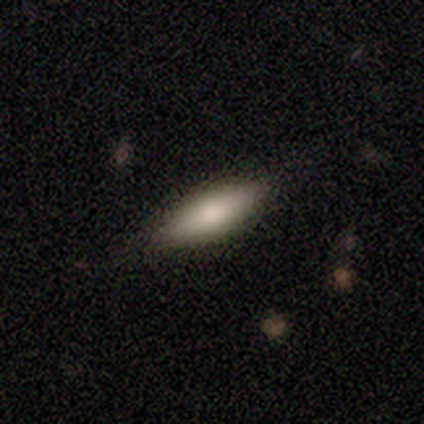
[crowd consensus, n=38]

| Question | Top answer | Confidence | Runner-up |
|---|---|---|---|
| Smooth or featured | smooth | 63% | featured or disk (37%) |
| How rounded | in between | 54% | cigar-shaped (46%) |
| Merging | none | 84% | minor disturbance (11%) |